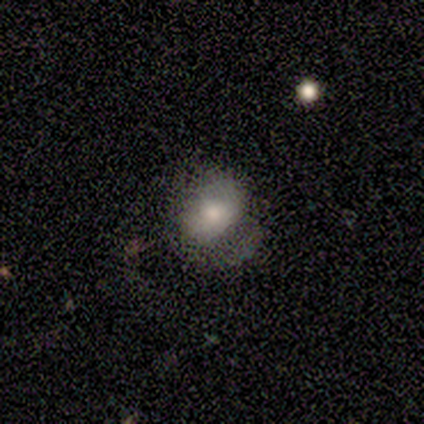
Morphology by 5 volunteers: This is likely a smooth galaxy (60%). How rounded: likely in between (67%). Merging: marginally none (40%, tied with minor disturbance).